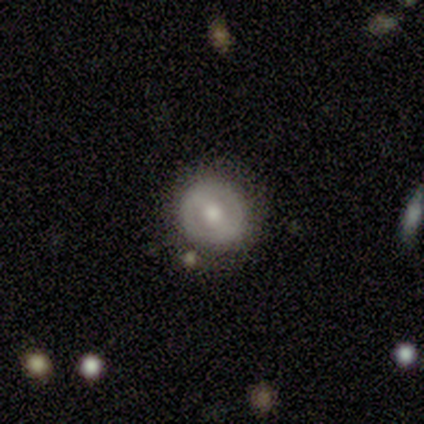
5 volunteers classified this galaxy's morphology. Q: Smooth or featured?
A: smooth (80%); runner-up: featured or disk (20%)
Q: How rounded?
A: round (100%)
Q: Merging?
A: none (80%); runner-up: merger (20%)